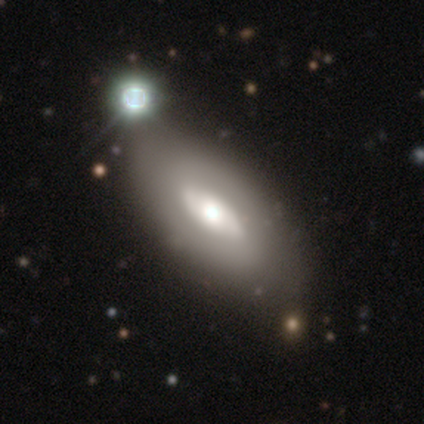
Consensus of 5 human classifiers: A smooth galaxy with no disk features (40%, tied with featured or disk) that is in between round and cigar-shaped (100%). Merging: none (75%).